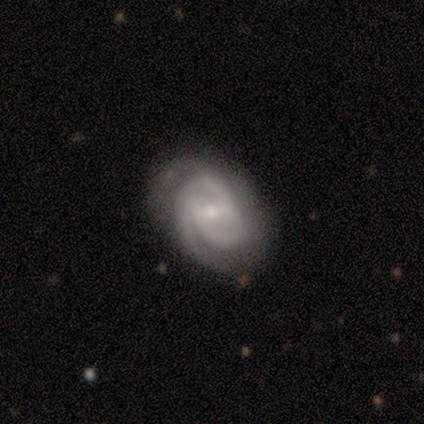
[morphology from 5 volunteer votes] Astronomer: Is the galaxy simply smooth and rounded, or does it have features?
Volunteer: featured or disk — 100%.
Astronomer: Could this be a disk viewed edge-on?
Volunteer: no — 100%.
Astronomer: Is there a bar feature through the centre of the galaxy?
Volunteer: weak — 60% (runner-up: no, 40%).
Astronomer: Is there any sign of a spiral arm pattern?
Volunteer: yes — 80%.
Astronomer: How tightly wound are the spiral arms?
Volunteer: medium — 50%.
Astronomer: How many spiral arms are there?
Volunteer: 2 — 75%.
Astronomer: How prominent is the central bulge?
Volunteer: small — 60% (runner-up: moderate, 40%).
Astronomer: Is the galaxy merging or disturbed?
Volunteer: none — 100%.